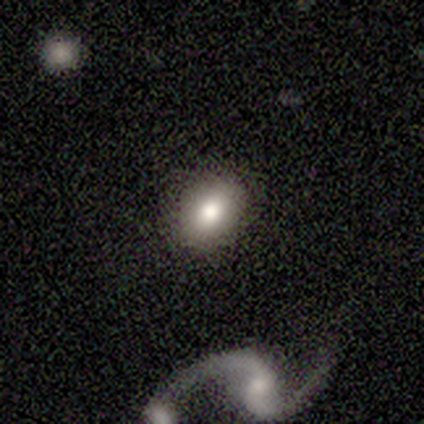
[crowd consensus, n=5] smooth-or-featured: smooth: 40% (tied) | featured or disk: 40% (tied) | star or artifact: 20%
  how-rounded: in between: 100% | round: 0% | cigar-shaped: 0%
  merging: none: 100% | minor disturbance: 0% | major disturbance: 0% | merger: 0%